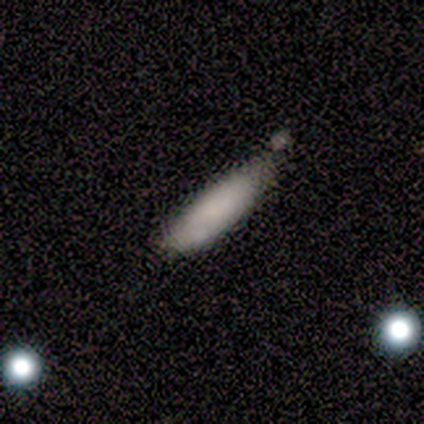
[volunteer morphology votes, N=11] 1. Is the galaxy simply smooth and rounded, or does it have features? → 82% smooth, 18% featured or disk, 0% star or artifact.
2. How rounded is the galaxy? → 78% cigar-shaped, 22% in between, 0% round.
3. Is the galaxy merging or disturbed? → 64% none, 27% minor disturbance, 9% major disturbance, 0% merger.